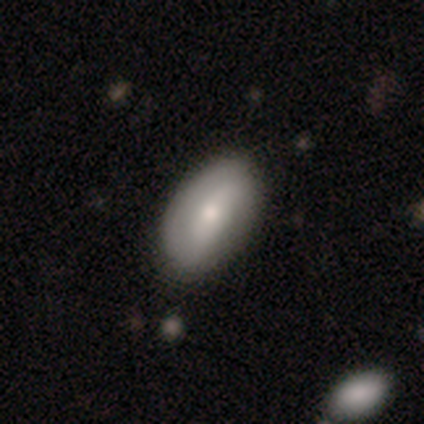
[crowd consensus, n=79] Q: Smooth or featured?
A: smooth (58%); runner-up: featured or disk (34%)
Q: How rounded?
A: in between (96%); runner-up: round (4%)
Q: Merging?
A: none (88%); runner-up: minor disturbance (10%)